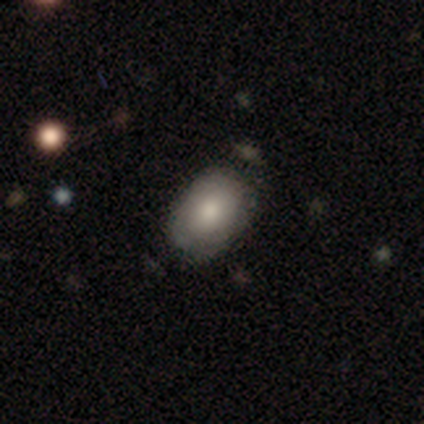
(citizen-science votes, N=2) A smooth galaxy with no disk features (100%) that is round (50%, tied with in between). Merging: none (50%, tied with minor disturbance).